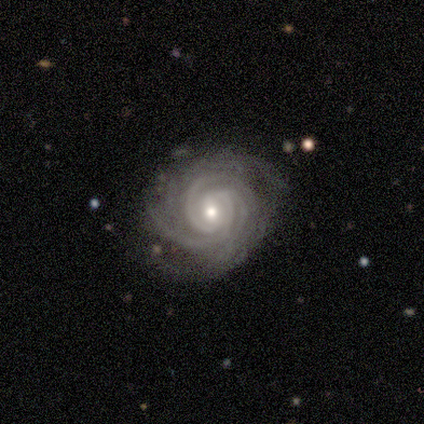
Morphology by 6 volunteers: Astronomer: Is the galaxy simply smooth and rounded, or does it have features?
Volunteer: featured or disk — 100%.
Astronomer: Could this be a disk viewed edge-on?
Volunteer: no — 100%.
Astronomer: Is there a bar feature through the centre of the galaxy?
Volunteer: no — 67%.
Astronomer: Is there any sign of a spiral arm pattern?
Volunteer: yes — 100%.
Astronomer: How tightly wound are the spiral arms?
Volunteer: tight — 100%.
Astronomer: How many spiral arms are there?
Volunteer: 3 — 83%.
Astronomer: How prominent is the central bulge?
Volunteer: small — 67%.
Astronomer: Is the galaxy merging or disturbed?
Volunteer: none — 83%.